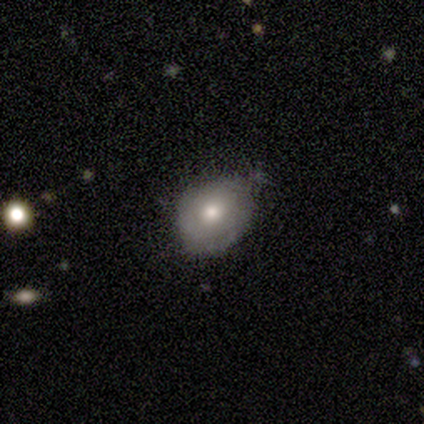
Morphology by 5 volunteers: Volunteers were most divided on "how rounded" (2-way tie): round: 50%, in between: 50%, cigar-shaped: 0%. More confident: smooth or featured — smooth (80%); merging — none (60%).